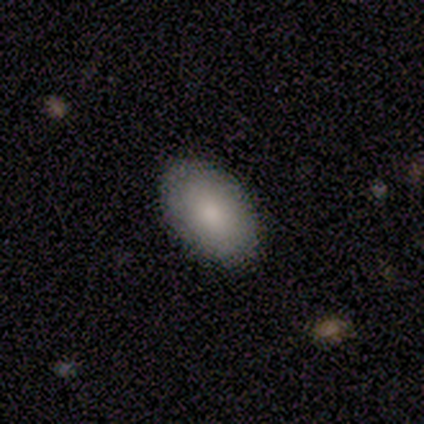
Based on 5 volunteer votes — Overall: smooth (100%). How rounded: in between (100%). Merging: none (100%).